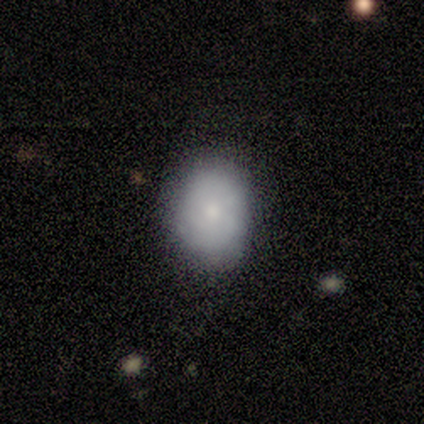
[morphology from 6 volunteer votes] Volunteers were most divided on "smooth or featured" (2-way tie): smooth: 50%, featured or disk: 50%, star or artifact: 0%. More confident: merging — none (83%); how rounded — in between (67%).